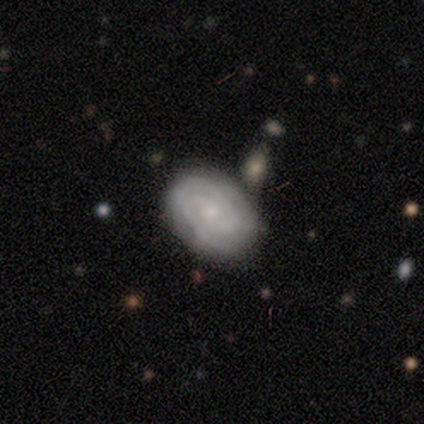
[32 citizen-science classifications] Smooth or featured? featured or disk (81%)
Edge-on disk? no (96%)
Bar? no (72%)
Spiral arms? yes (92%)
Spiral winding? tight (78%)
Spiral arm count? 2 (43%)
Bulge size? small (52%)
Merging? none (81%)